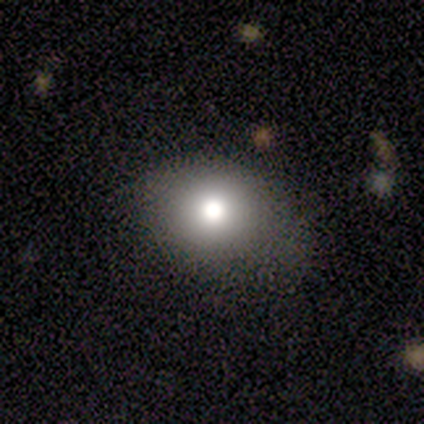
Volunteers were most divided on "how rounded": round: 67%, in between: 33%, cigar-shaped: 0%. More confident: merging — none (100%); smooth or featured — smooth (60%).